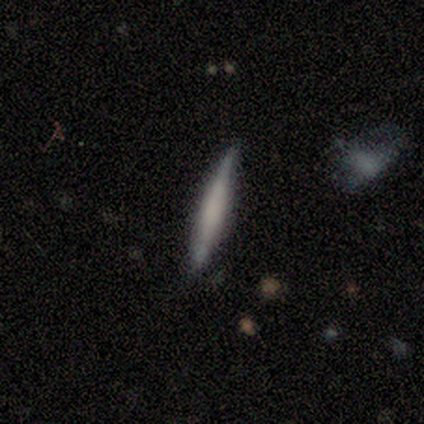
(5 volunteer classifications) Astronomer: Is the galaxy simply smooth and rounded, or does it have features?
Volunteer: featured or disk — 80%.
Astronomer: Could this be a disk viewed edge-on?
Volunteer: yes — 100%.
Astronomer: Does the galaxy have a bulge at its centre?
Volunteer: boxy — 50%.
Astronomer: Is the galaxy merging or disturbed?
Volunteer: none — 80%.